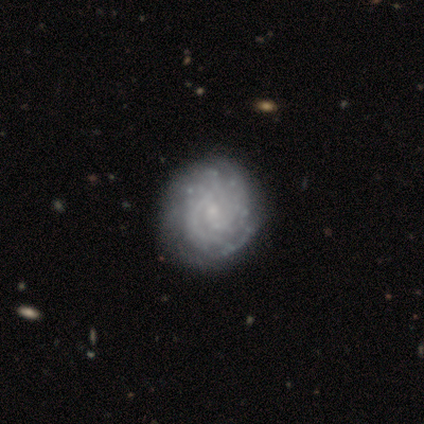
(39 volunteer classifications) Smooth or featured? featured or disk (90%)
Edge-on disk? no (100%)
Bar? no (60%)
Spiral arms? yes (97%)
Spiral winding? tight (79%)
Spiral arm count? can't tell (47%)
Bulge size? small (71%)
Merging? none (62%)